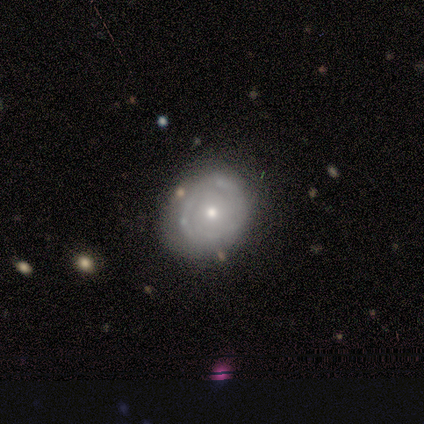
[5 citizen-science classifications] Smooth or featured?
  - featured or disk: 100% *
  - smooth: 0%
  - star or artifact: 0%
Edge-on disk?
  - no: 100% *
  - yes: 0%
Bar?
  - no: 80% *
  - weak: 20%
  - strong: 0%
Spiral arms?
  - yes: 80% *
  - no: 20%
Spiral winding?
  - tight: 75% *
  - loose: 25%
  - medium: 0%
Spiral arm count?
  - can't tell: 75% *
  - 4: 25%
  - 1: 0%
  - 2: 0%
  - 3: 0%
  - more than 4: 0%
Bulge size?
  - small: 60% *
  - moderate: 40%
  - dominant: 0%
  - large: 0%
  - none: 0%
Merging?
  - none: 60% *
  - minor disturbance: 40%
  - major disturbance: 0%
  - merger: 0%